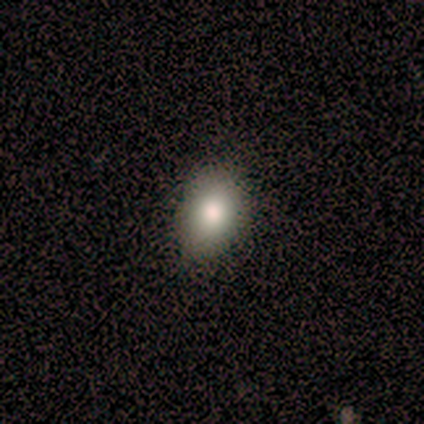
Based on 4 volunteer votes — This appears to be a smooth galaxy with no disk features (75%) that is in between round and cigar-shaped (100%). Merging: none (100%).